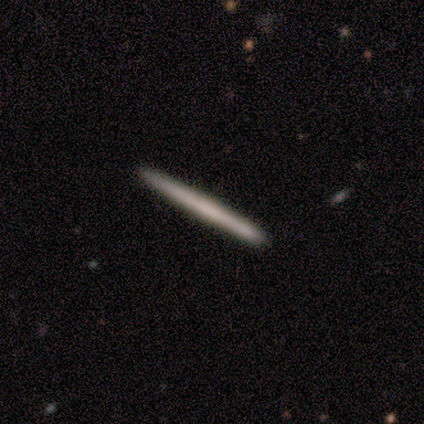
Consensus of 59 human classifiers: Smooth or featured?
  - smooth: 58% *
  - featured or disk: 39%
  - star or artifact: 3%
How rounded?
  - cigar-shaped: 100% *
  - round: 0%
  - in between: 0%
Merging?
  - none: 84% *
  - minor disturbance: 14%
  - major disturbance: 2%
  - merger: 0%